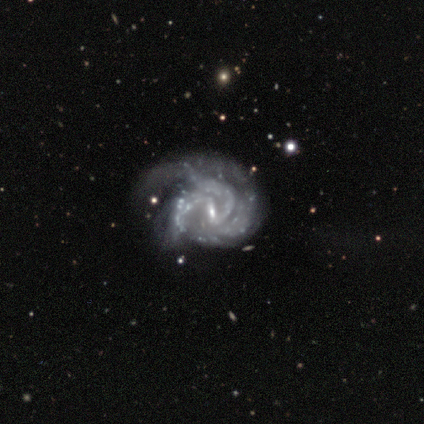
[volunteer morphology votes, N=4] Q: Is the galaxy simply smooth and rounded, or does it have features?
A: featured or disk — 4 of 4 (100%).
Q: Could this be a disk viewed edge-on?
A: no — 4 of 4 (100%).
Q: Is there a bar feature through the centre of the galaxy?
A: weak — 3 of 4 (75%).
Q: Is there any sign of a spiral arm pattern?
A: yes — 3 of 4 (75%).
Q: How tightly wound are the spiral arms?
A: tight — 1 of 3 (33%, tied with medium and loose).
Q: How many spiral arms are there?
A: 2 — 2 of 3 (67%).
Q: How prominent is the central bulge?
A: small — 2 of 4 (50%).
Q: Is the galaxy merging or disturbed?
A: major disturbance — 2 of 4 (50%).